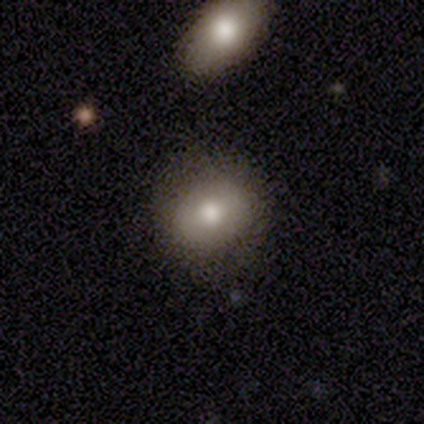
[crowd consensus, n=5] Smooth or featured? 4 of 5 (80%) said smooth. How rounded? 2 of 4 (50%, tied with in between) said round. Merging? 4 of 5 (80%) said none.